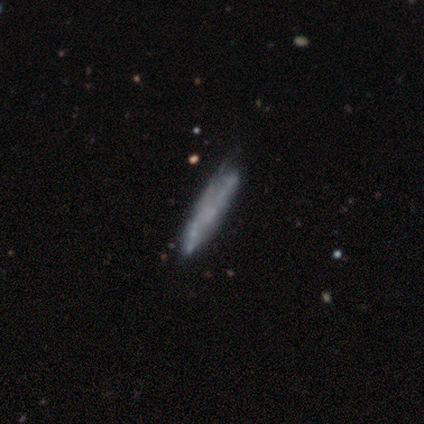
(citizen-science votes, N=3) A smooth galaxy with no disk features (67%) that is cigar-shaped (100%). Merging: none (33%, tied with minor disturbance and merger).